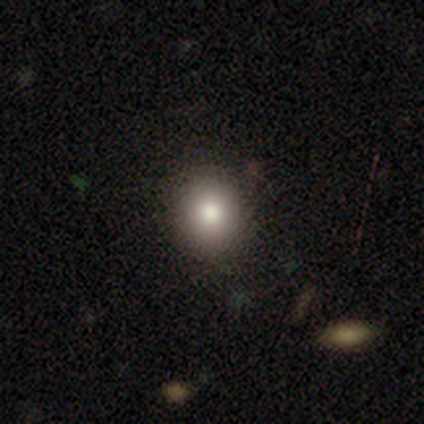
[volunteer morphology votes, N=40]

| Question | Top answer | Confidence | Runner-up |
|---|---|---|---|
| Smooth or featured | smooth | 92% | star or artifact (5%) |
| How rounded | round | 89% | in between (11%) |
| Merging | none | 79% | minor disturbance (11%) |